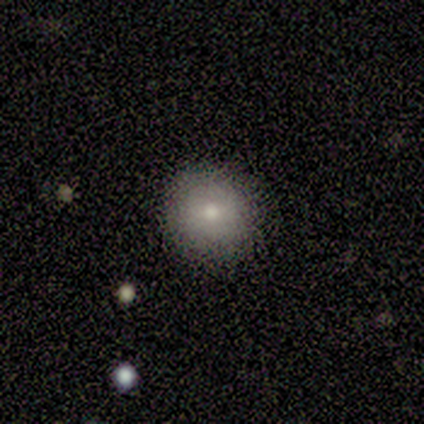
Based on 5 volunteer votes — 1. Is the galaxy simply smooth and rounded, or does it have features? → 100% smooth, 0% featured or disk, 0% star or artifact.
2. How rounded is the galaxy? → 100% round, 0% in between, 0% cigar-shaped.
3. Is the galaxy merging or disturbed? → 80% none, 20% minor disturbance, 0% major disturbance, 0% merger.